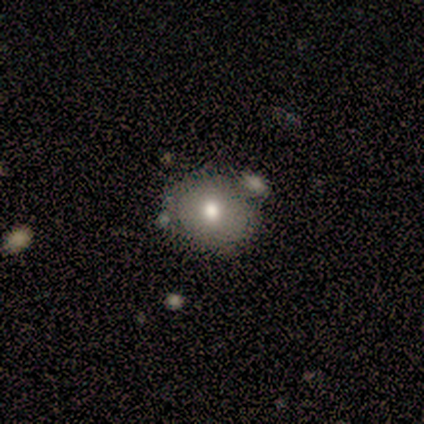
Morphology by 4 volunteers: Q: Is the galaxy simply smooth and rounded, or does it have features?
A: smooth — 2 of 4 (50%, tied with star or artifact).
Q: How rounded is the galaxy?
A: round — 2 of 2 (100%).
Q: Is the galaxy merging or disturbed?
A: none — 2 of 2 (100%).